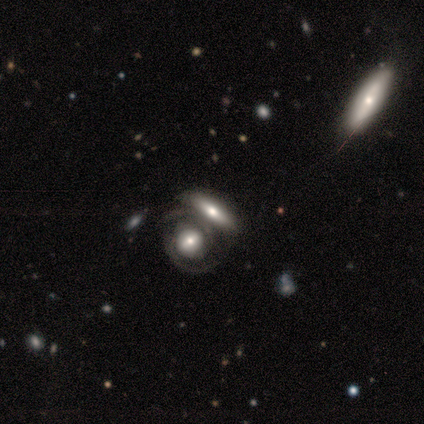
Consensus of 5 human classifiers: Overall: featured or disk (80%). Edge-on disk: no (75%). Bar: no (67%; weak 33%). Spiral arms: yes (100%). Spiral arm count: 2 (100%). Spiral winding: tight (67%; medium 33%). Bulge size: moderate (67%; large 33%). Merging: none (50%, tied with merger).